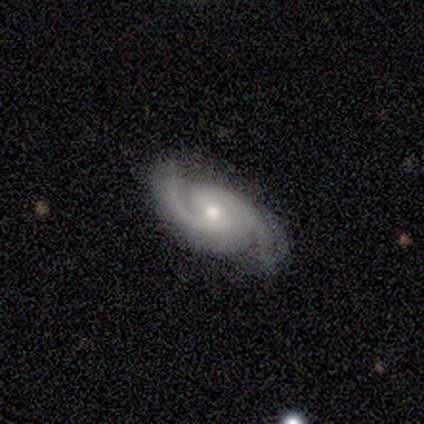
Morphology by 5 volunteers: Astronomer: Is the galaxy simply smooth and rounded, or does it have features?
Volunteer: featured or disk — 100%.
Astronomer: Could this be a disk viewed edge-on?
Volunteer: no — 100%.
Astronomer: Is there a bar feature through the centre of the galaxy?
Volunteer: weak — 60% (runner-up: no, 40%).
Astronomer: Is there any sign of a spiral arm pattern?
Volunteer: yes — 100%.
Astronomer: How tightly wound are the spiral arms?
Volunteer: tight — 60% (runner-up: medium, 40%).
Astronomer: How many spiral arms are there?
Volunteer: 2 — 100%.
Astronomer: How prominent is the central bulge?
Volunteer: moderate — 80%.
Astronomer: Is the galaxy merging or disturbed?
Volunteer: none — 100%.